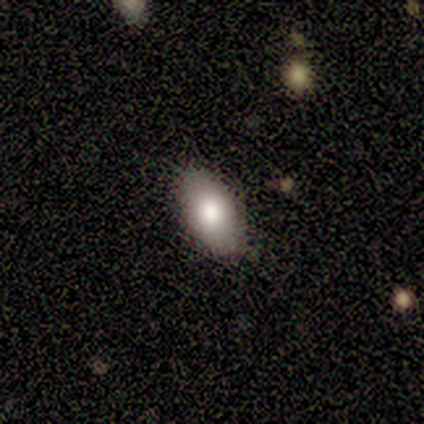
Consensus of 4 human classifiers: smooth-or-featured: smooth: 100% | featured or disk: 0% | star or artifact: 0%
  how-rounded: in between: 100% | round: 0% | cigar-shaped: 0%
  merging: none: 100% | minor disturbance: 0% | major disturbance: 0% | merger: 0%